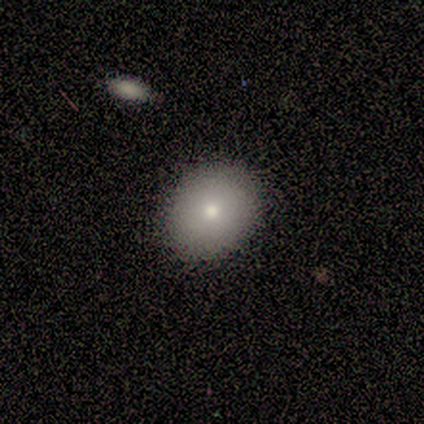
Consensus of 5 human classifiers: Smooth or featured: smooth — 60% (featured or disk — 20%)
How rounded: in between — 67% (round — 33%)
Merging: none — 100%